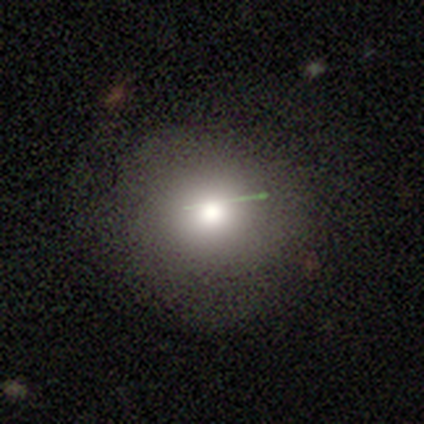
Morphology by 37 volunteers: Volunteers were most divided on "merging": none: 65%, minor disturbance: 26%, major disturbance: 10%, merger: 0%. More confident: how rounded — round (96%); smooth or featured — smooth (65%).